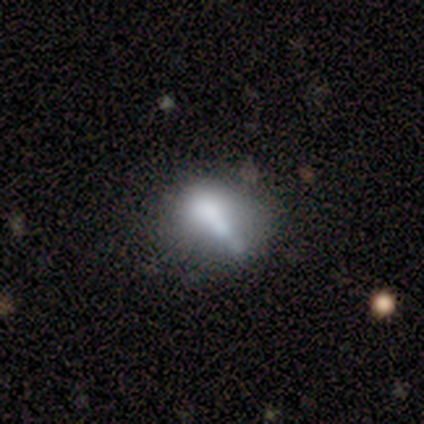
This appears to be a smooth galaxy with no disk features (62%) that is in between round and cigar-shaped (58%). Merging: none (31%).